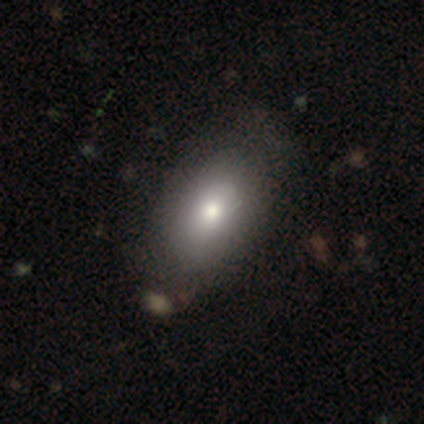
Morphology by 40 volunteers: This is likely a smooth galaxy (78%). How rounded: clearly in between (84%). Merging: marginally none (37%).